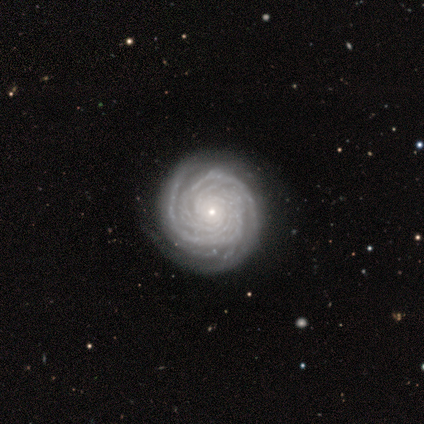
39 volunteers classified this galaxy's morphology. smooth_or_featured: featured or disk (p=0.95) [alt: smooth p=0.03]
disk_edge_on: no (p=0.89) [alt: yes p=0.11]
bar: no (p=0.88) [alt: weak p=0.09]
has_spiral_arms: yes (p=0.97) [alt: no p=0.03]
spiral_winding: tight (p=0.94) [alt: medium p=0.03]
spiral_arm_count: more than 4 (p=0.44) [alt: 2 p=0.19]
bulge_size: small (p=0.82) [alt: moderate p=0.18]
merging: none (p=0.82) [alt: minor disturbance p=0.18]